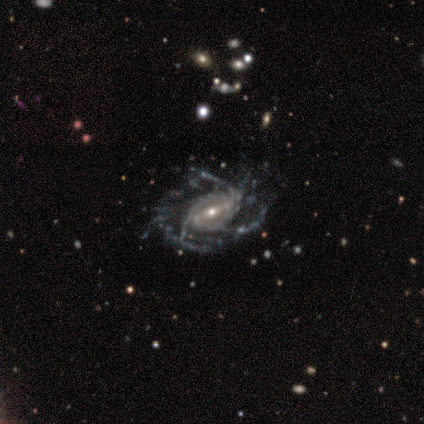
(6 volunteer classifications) Volunteers were most divided on "bar" (2-way tie): strong: 50%, weak: 50%, no: 0%. More confident: smooth or featured — featured or disk (100%); edge-on disk — no (100%); spiral arms — yes (100%); bulge size — small (83%); merging — none (67%); spiral winding — medium (67%); spiral arm count — 3 (50%).